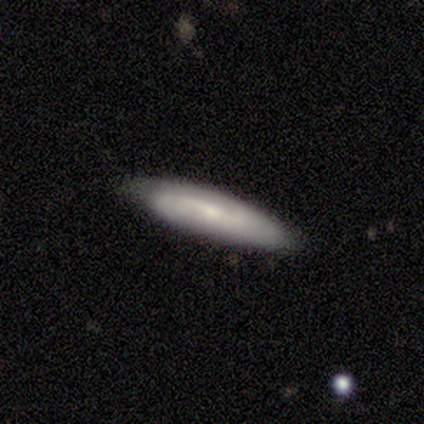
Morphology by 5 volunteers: Smooth or featured? 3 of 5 (60%) said smooth. How rounded? 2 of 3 (67%) said cigar-shaped. Merging? 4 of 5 (80%) said none.